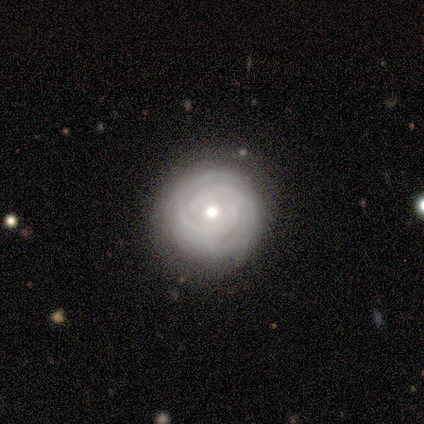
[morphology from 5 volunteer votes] featured or disk 100%, smooth 0%, star or artifact 0%. Down the decision tree: edge-on disk — no (100%); bar — no (80%); spiral arms — yes (100%); spiral arm count — 2 (40%, tied with can't tell); spiral winding — tight (80%); bulge size — moderate (80%); merging — none (80%).